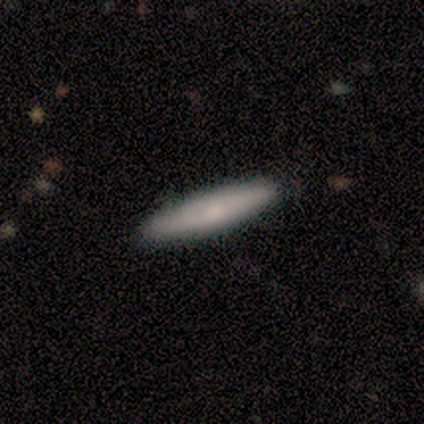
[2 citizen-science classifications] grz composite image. It shows a smooth galaxy with no disk features (50%, tied with star or artifact) that is in between round and cigar-shaped (100%). Merging: none (100%).